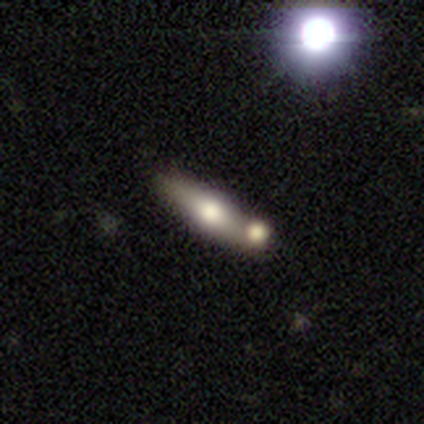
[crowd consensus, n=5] Smooth or featured: featured or disk — 100%
Edge-on disk: yes — 100%
Edge-on bulge: rounded — 100%
Merging: none — 100%